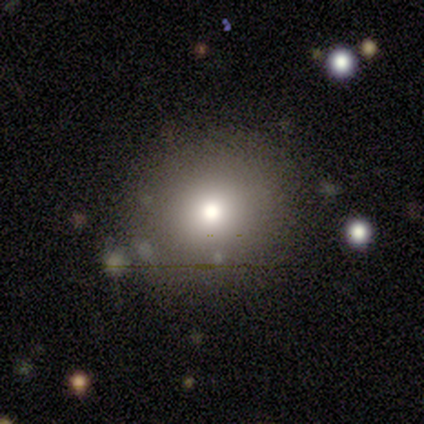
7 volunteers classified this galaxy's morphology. Q: Smooth or featured?
A: star or artifact (57%); runner-up: smooth (29%)